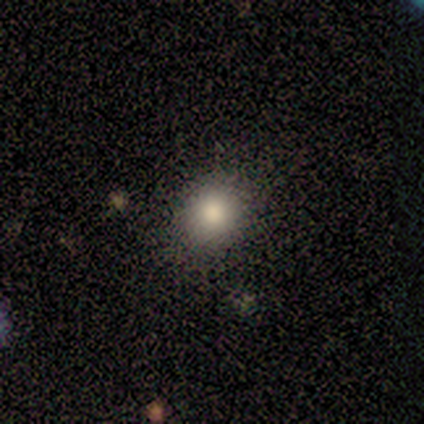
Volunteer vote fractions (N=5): smooth_or_featured: smooth (p=0.60) [alt: star or artifact p=0.40]
how_rounded: round (p=1.00)
merging: none (p=0.67) [alt: minor disturbance p=0.33]